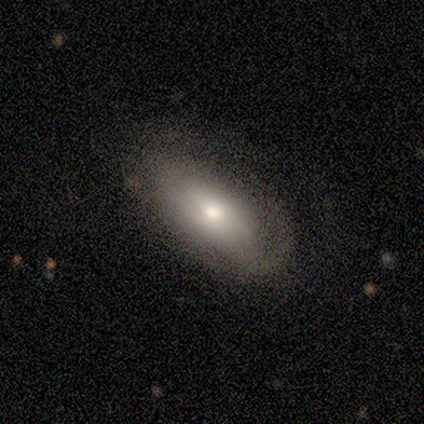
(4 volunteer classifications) Smooth or featured? featured or disk (50%)
Edge-on disk? no (100%)
Bar? weak (50%, tied with no)
Spiral arms? yes (100%)
Spiral winding? tight (50%, tied with loose)
Spiral arm count? can't tell (100%)
Bulge size? moderate (50%, tied with small)
Merging? none (67%)